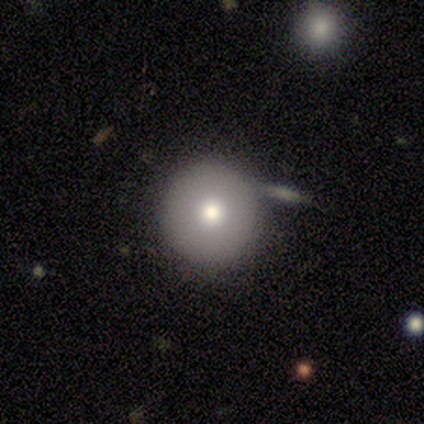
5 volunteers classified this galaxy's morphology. Q: Smooth or featured?
A: smooth (60%); runner-up: featured or disk (40%)
Q: How rounded?
A: round (100%)
Q: Merging?
A: none (100%)